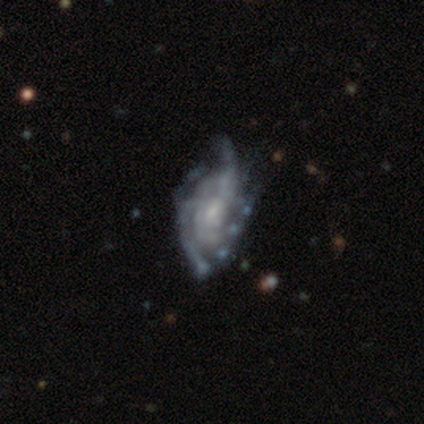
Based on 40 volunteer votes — This appears to be a featured or disk galaxy (92%) with a weak bar (51%), tight (35%) spiral arms (84%) and a small central bulge (59%). Merging: major disturbance (30%).